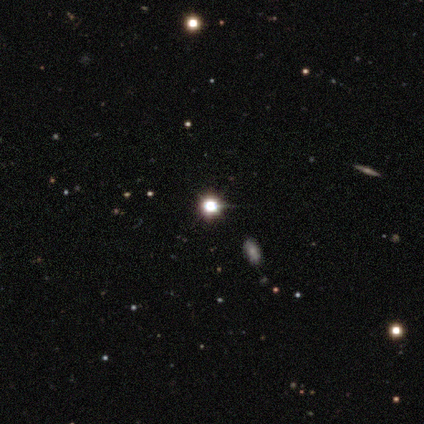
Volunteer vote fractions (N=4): smooth_or_featured: star or artifact (p=1.00)